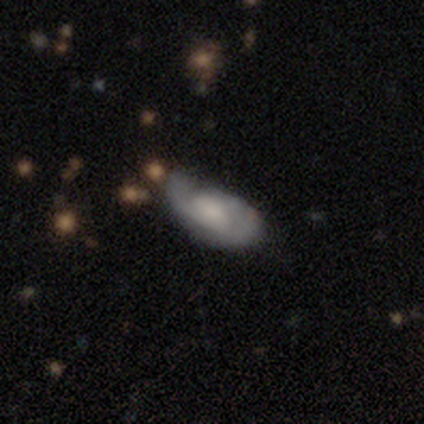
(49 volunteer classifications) A featured or disk galaxy (53%) with no bar (62%), 2 (64%) tight (50%) spiral arms (85%) and a moderate central bulge (35%).

Vote fractions:
- Smooth or featured? featured or disk: 53% / smooth: 41% / star or artifact: 6%
- Edge-on disk? no: 100% / yes: 0%
- Bar? no: 62% / weak: 35% / strong: 4%
- Spiral arms? yes: 85% / no: 15%
- Spiral winding? tight: 50% / medium: 36% / loose: 14%
- Spiral arm count? 2: 64% / can't tell: 23% / 1: 14% / 3: 0% / 4: 0% / more than 4: 0%
- Bulge size? moderate: 35% / large: 27% / small: 23% / none: 15% / dominant: 0%
- Merging? none: 50% / minor disturbance: 35% / major disturbance: 9% / merger: 7%